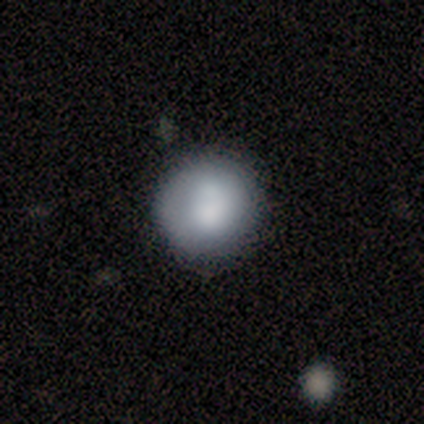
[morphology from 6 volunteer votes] type=smooth (50%); roundness=round (100%); merging=none (80%).